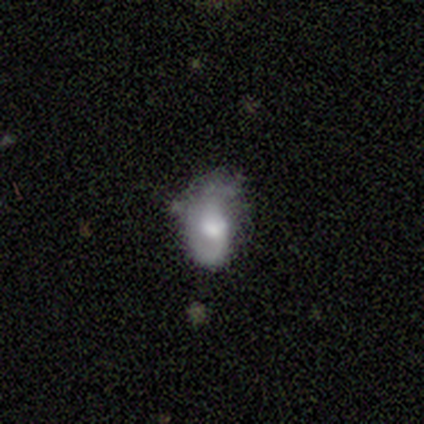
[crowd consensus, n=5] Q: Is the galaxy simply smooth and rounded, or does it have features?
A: smooth — 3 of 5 (60%).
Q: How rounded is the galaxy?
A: in between — 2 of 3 (67%).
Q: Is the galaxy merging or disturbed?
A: none — 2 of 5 (40%, tied with major disturbance).